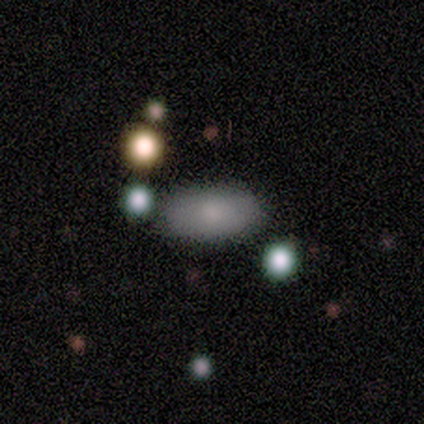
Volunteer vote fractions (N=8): smooth_or_featured: smooth (p=0.88) [alt: star or artifact p=0.12]
how_rounded: in between (p=1.00)
merging: none (p=0.71) [alt: major disturbance p=0.29]